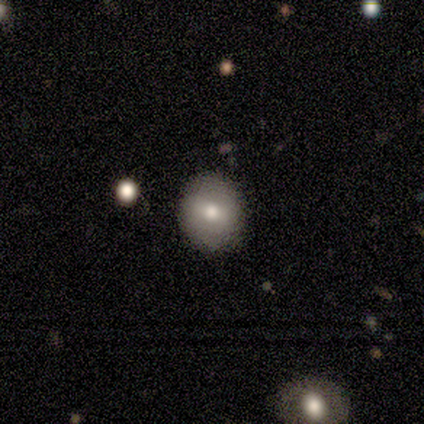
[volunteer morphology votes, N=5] Smooth or featured? smooth (100%)
How rounded? round (100%)
Merging? none (100%)